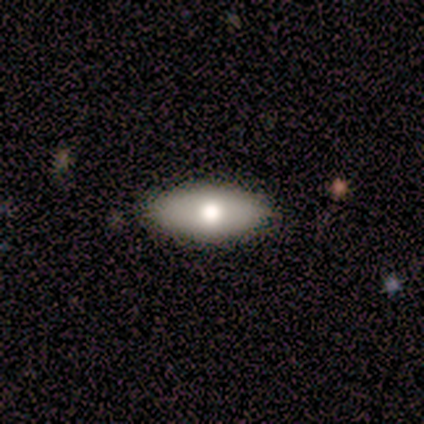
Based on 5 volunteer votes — smooth-or-featured: smooth: 100% | featured or disk: 0% | star or artifact: 0%
  how-rounded: in between: 100% | round: 0% | cigar-shaped: 0%
  merging: none: 100% | minor disturbance: 0% | major disturbance: 0% | merger: 0%